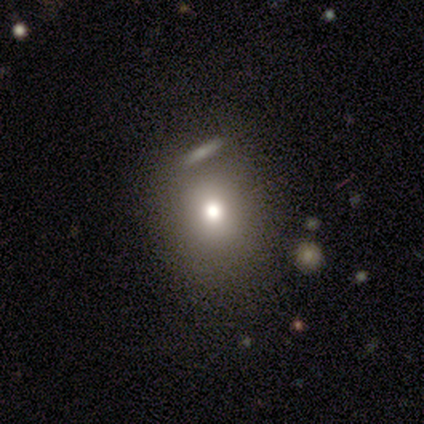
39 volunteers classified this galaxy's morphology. Q: Smooth or featured?
A: smooth (69%); runner-up: star or artifact (18%)
Q: How rounded?
A: round (70%); runner-up: in between (30%)
Q: Merging?
A: none (72%); runner-up: minor disturbance (19%)